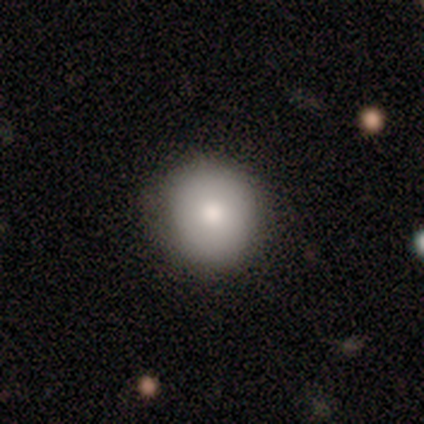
Consensus on every question: smooth or featured — smooth (100%); how rounded — round (100%); merging — none (100%).